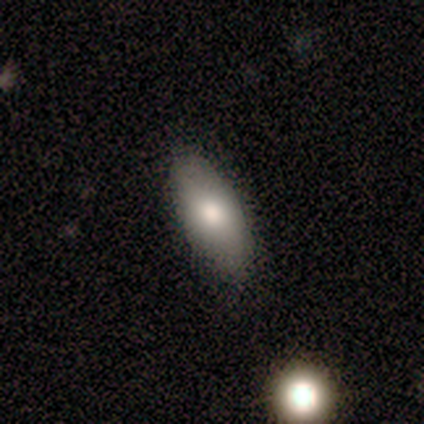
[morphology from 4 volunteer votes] Smooth or featured? smooth (75%)
How rounded? in between (100%)
Merging? none (100%)